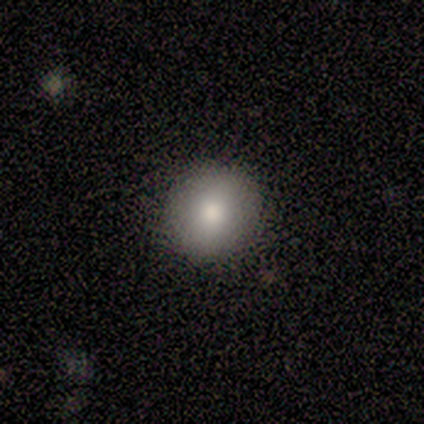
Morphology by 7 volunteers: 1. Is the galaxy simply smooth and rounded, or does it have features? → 71% smooth, 14% featured or disk, 14% star or artifact.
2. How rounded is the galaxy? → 100% round, 0% in between, 0% cigar-shaped.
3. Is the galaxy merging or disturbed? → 100% none, 0% minor disturbance, 0% major disturbance, 0% merger.